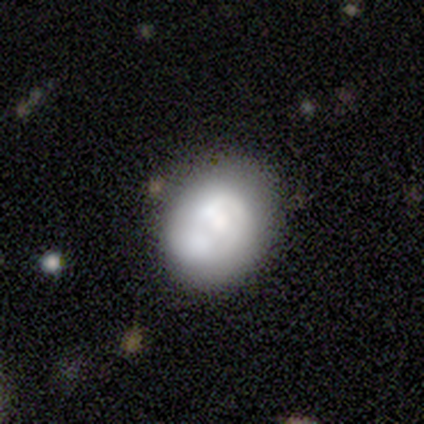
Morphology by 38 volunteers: Smooth or featured? smooth (55%)
How rounded? round (62%)
Merging? none (30%)